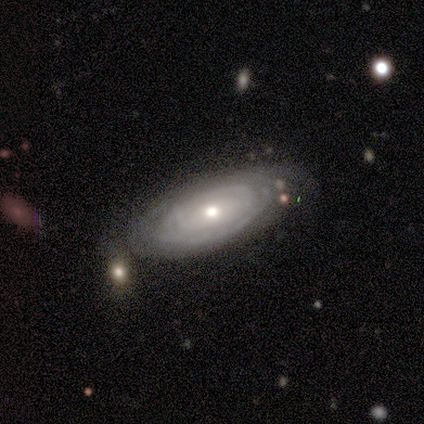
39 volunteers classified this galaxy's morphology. A featured or disk galaxy (72%) with no bar (68%), tight (70%) spiral arms (80%) and a moderate central bulge (60%).

Vote fractions:
- Smooth or featured? featured or disk: 72% / smooth: 26% / star or artifact: 3%
- Edge-on disk? no: 89% / yes: 11%
- Bar? no: 68% / weak: 32% / strong: 0%
- Spiral arms? yes: 80% / no: 20%
- Spiral winding? tight: 70% / medium: 20% / loose: 10%
- Spiral arm count? can't tell: 65% / 3: 10% / 4: 10% / 1: 5% / 2: 5% / more than 4: 5%
- Bulge size? moderate: 60% / small: 32% / large: 8% / dominant: 0% / none: 0%
- Merging? none: 66% / minor disturbance: 26% / merger: 5% / major disturbance: 3%